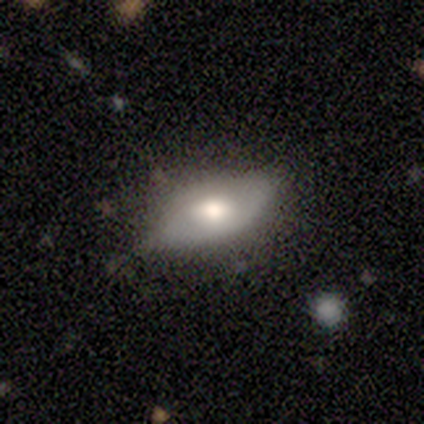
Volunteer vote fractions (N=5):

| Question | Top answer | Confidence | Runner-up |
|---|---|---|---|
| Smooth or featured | smooth | 80% | featured or disk (20%) |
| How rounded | in between | 100% | — |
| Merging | none | 60% | minor disturbance (40%) |